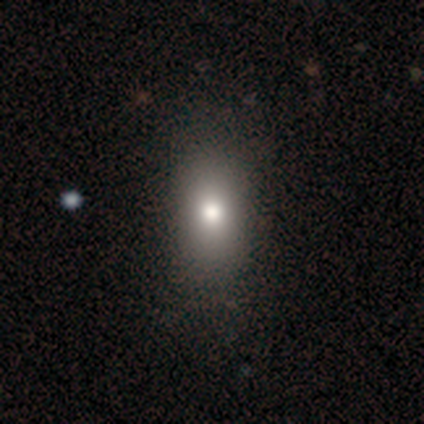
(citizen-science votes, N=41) Smooth or featured? smooth (76%)
How rounded? in between (77%)
Merging? none (76%)